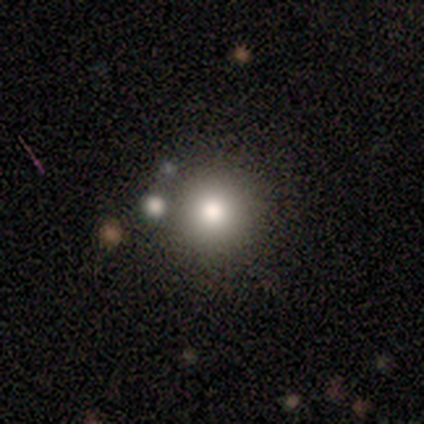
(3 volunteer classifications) A smooth galaxy with no disk features (67%) that is round (100%).

Vote fractions:
- Smooth or featured? smooth: 67% / featured or disk: 33% / star or artifact: 0%
- How rounded? round: 100% / in between: 0% / cigar-shaped: 0%
- Merging? minor disturbance: 67% / none: 33% / major disturbance: 0% / merger: 0%